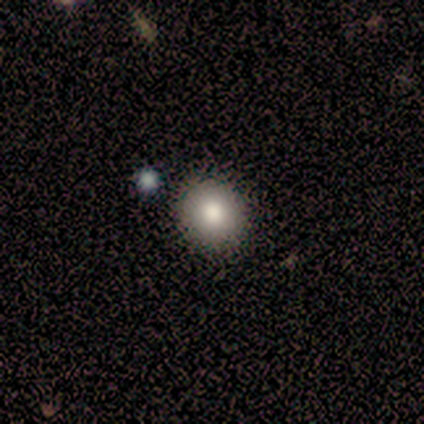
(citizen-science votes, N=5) smooth_or_featured: smooth (p=1.00)
how_rounded: round (p=0.80) [alt: in between p=0.20]
merging: none (p=1.00)